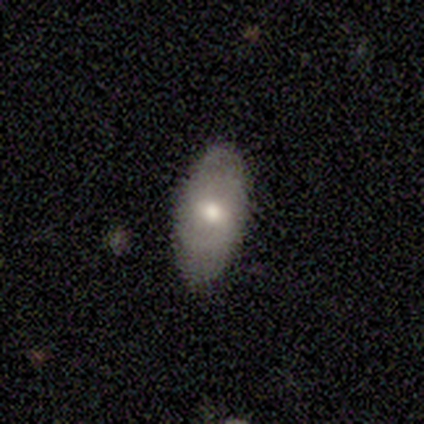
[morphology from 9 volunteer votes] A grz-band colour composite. It shows a smooth galaxy with no disk features (89%) that is in between round and cigar-shaped (88%). Merging: none (67%).